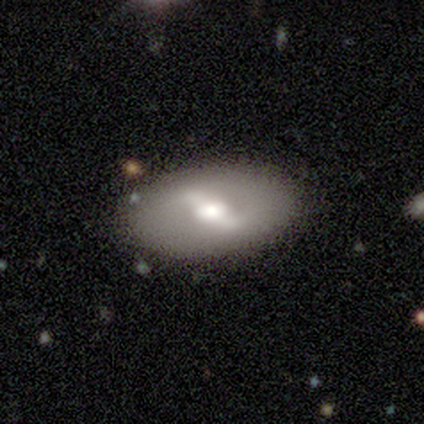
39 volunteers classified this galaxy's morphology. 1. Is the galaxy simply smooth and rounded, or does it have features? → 69% featured or disk, 23% smooth, 8% star or artifact.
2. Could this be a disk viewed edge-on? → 93% no, 7% yes.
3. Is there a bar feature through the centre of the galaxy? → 64% strong, 28% weak, 8% no.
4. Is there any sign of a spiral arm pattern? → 68% no, 32% yes.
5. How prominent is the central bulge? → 48% moderate, 32% large, 20% small, 0% dominant, 0% none.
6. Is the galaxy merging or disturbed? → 86% none, 11% minor disturbance, 3% merger, 0% major disturbance.